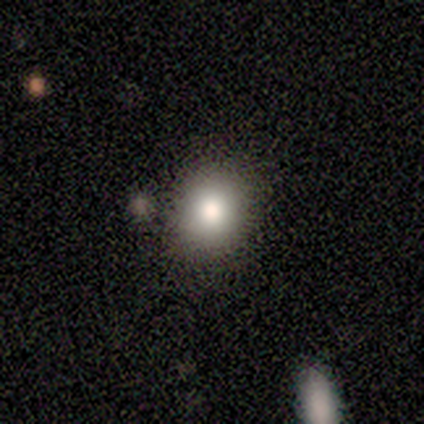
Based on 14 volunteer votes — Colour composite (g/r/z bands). It shows a smooth galaxy with no disk features (79%) that is round (55%). Merging: none (100%).